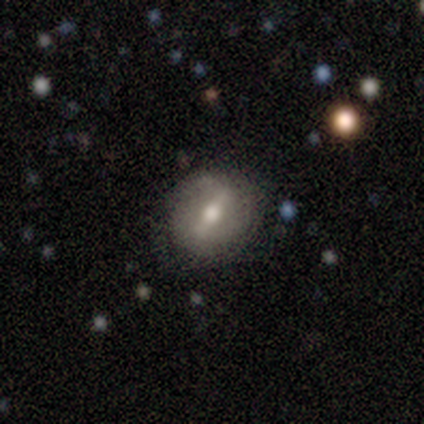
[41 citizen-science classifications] A featured or disk galaxy (78%) with a strong bar (74%), no spiral arms (65%) and a moderate central bulge (81%).

Vote fractions:
- Smooth or featured? featured or disk: 78% / smooth: 17% / star or artifact: 5%
- Edge-on disk? no: 97% / yes: 3%
- Bar? strong: 74% / weak: 26% / no: 0%
- Spiral arms? no: 65% / yes: 35%
- Bulge size? moderate: 81% / large: 13% / small: 6% / dominant: 0% / none: 0%
- Merging? none: 82% / minor disturbance: 15% / major disturbance: 3% / merger: 0%